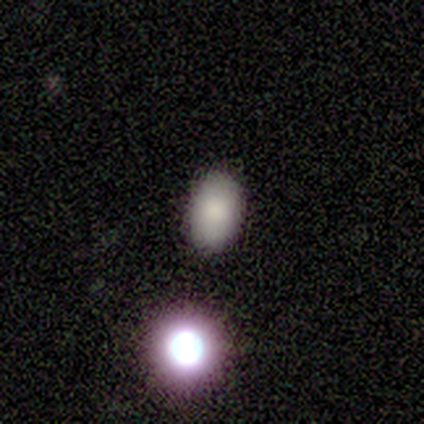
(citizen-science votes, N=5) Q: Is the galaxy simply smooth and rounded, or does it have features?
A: smooth — 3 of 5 (60%).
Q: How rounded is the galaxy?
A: in between — 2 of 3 (67%).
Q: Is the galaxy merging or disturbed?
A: none — 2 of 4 (50%, tied with merger).